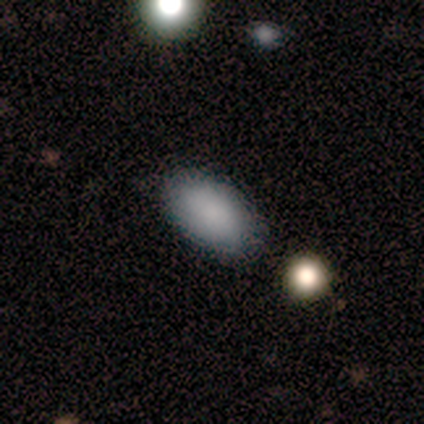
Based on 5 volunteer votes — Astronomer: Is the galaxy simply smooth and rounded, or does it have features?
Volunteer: smooth — 100%.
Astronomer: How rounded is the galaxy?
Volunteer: in between — 100%.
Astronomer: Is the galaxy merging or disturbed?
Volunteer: none — 100%.